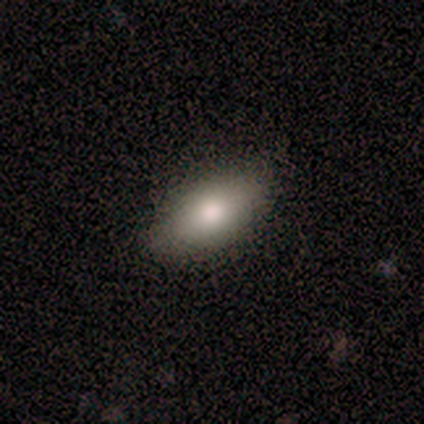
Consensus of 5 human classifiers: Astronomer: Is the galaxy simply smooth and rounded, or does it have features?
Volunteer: smooth — 60% (runner-up: featured or disk, 40%).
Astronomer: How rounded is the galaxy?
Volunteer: in between — 100%.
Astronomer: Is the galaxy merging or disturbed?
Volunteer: none — 100%.